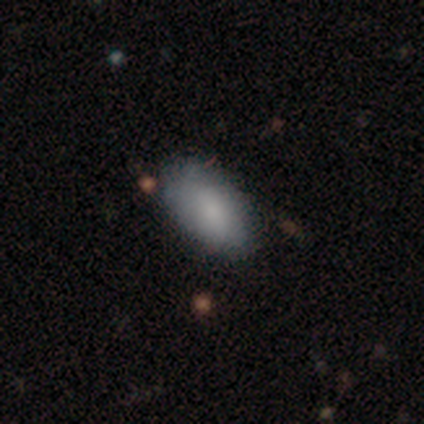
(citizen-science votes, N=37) A smooth galaxy with no disk features (84%) that is in between round and cigar-shaped (90%). Merging: none (77%).